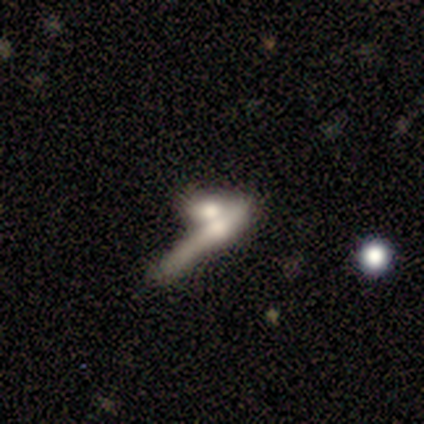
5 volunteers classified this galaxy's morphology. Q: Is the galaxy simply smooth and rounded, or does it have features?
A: featured or disk — 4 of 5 (80%).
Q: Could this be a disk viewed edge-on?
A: yes — 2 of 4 (50%, tied with no).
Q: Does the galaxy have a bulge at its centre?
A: rounded — 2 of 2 (100%).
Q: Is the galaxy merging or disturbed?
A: merger — 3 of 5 (60%).